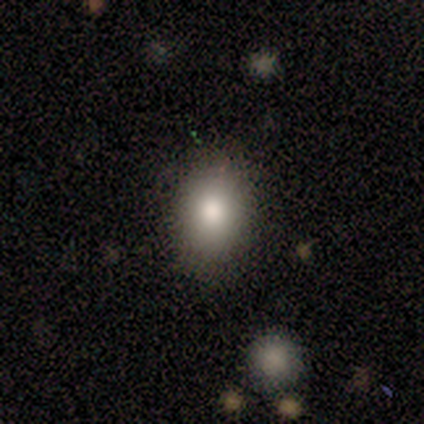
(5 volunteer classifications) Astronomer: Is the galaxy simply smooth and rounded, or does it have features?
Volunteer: smooth — 80%.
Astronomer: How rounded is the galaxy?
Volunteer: in between — 75%.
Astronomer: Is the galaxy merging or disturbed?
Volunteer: none — 80%.